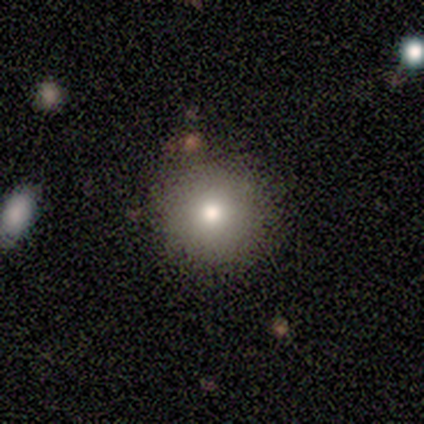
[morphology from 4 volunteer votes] This appears to be a smooth galaxy with no disk features (50%, tied with featured or disk) that is round (100%). Merging: none (75%).